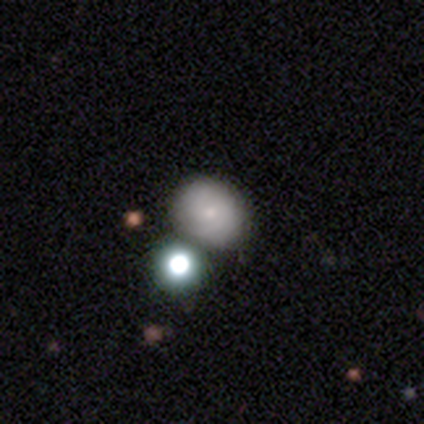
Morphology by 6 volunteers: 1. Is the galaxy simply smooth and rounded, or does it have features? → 50% smooth, 33% featured or disk, 17% star or artifact.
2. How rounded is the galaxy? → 100% round, 0% in between, 0% cigar-shaped.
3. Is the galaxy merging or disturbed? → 40% none (tied), 40% minor disturbance (tied), 20% merger, 0% major disturbance.